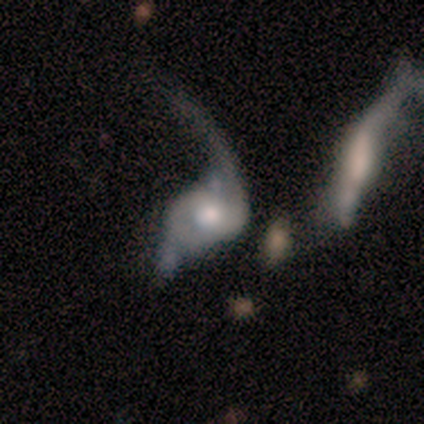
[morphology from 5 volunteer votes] A featured or disk galaxy (80%) with a weak bar (50%, tied with no), 1 (50%) loose (75%) spiral arms (100%) and a moderate central bulge (75%).

Vote fractions:
- Smooth or featured? featured or disk: 80% / smooth: 20% / star or artifact: 0%
- Edge-on disk? no: 100% / yes: 0%
- Bar? weak: 50% (tied) / no: 50% (tied) / strong: 0%
- Spiral arms? yes: 100% / no: 0%
- Spiral winding? loose: 75% / medium: 25% / tight: 0%
- Spiral arm count? 1: 50% / 2: 25% / can't tell: 25% / 3: 0% / 4: 0% / more than 4: 0%
- Bulge size? moderate: 75% / large: 25% / dominant: 0% / small: 0% / none: 0%
- Merging? major disturbance: 60% / minor disturbance: 20% / merger: 20% / none: 0%